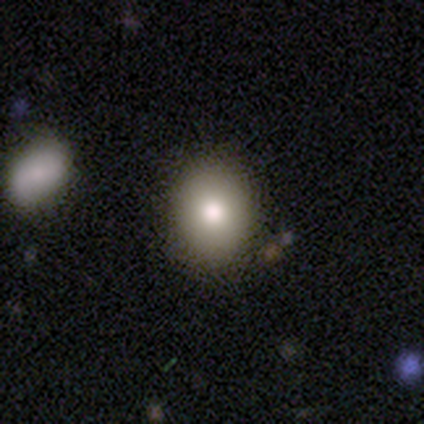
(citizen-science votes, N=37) smooth 86%, featured or disk 8%, star or artifact 5%. Down the decision tree: how rounded — in between (56%); merging — none (89%).